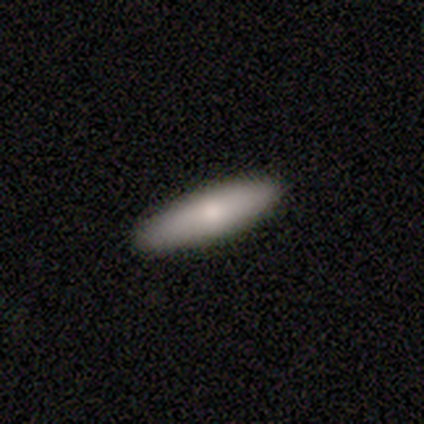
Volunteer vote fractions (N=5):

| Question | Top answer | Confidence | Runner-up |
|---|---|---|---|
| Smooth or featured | smooth | 40% | tied: featured or disk (40%) |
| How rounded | cigar-shaped | 100% | — |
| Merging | none | 75% | minor disturbance (25%) |